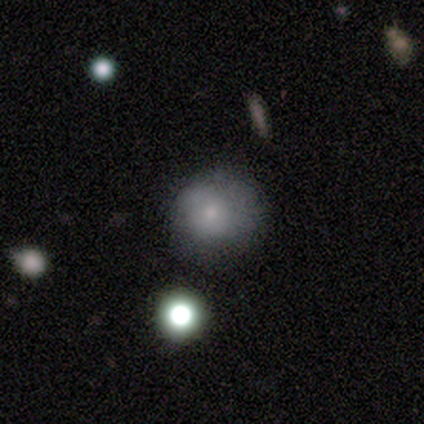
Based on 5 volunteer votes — Overall: smooth (60%; featured or disk 20%). How rounded: round (67%; in between 33%). Merging: minor disturbance (50%; none 25%).